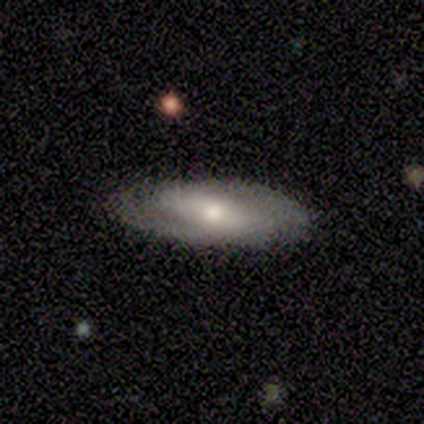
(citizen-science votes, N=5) smooth_or_featured: featured or disk (p=0.80) [alt: smooth p=0.20]
disk_edge_on: no (p=1.00)
bar: strong (p=0.75) [alt: no p=0.25]
has_spiral_arms: yes (p=0.50) [tied with: no p=0.50]
spiral_winding: tight (p=0.50) [tied with: medium p=0.50]
spiral_arm_count: 2 (p=0.50) [tied with: can't tell p=0.50]
bulge_size: moderate (p=0.50) [tied with: small p=0.50]
merging: none (p=0.80) [alt: minor disturbance p=0.20]